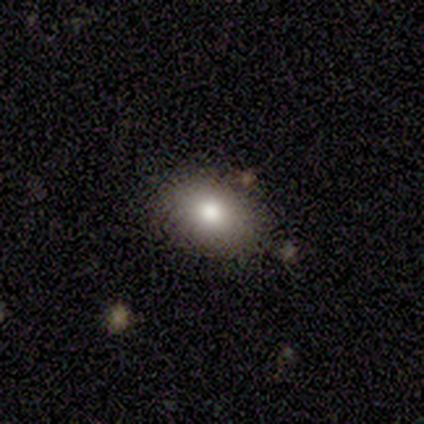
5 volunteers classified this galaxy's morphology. smooth 60%, featured or disk 20%, star or artifact 20%. Down the decision tree: how rounded — in between (67%); merging — none (100%).